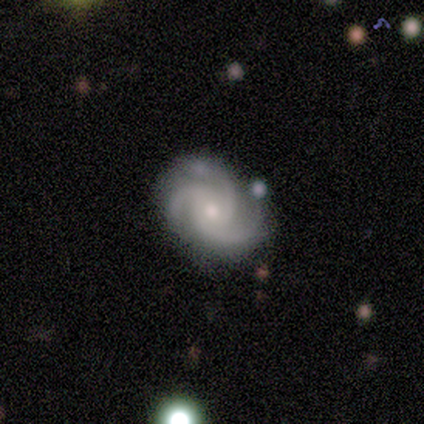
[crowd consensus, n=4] Q: Smooth or featured?
A: featured or disk (75%); runner-up: smooth (25%)
Q: Edge-on disk?
A: no (100%)
Q: Bar?
A: weak (67%); runner-up: no (33%)
Q: Spiral arms?
A: yes (100%)
Q: Spiral winding?
A: tight (67%); runner-up: medium (33%)
Q: Spiral arm count?
A: 3 (100%)
Q: Bulge size?
A: small (67%); runner-up: moderate (33%)
Q: Merging?
A: none (75%); runner-up: major disturbance (25%)